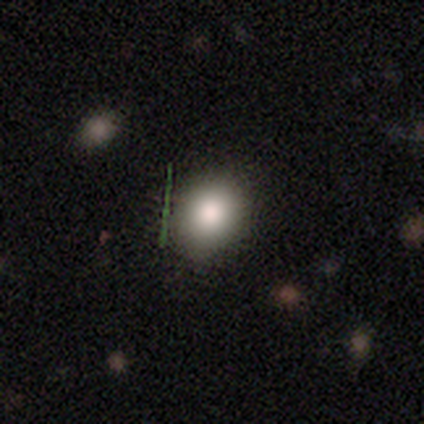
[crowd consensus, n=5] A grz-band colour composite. It shows a smooth galaxy with no disk features (40%, tied with featured or disk) that is round (100%). Merging: none (100%).